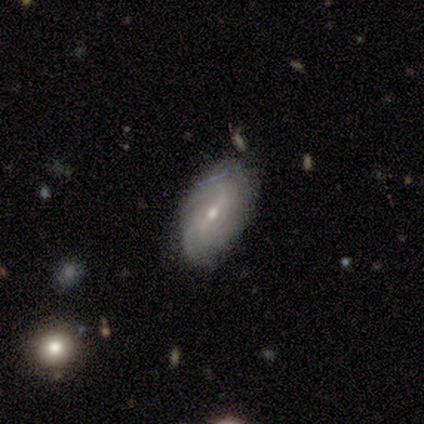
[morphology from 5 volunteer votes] smooth-or-featured: featured or disk: 100% | smooth: 0% | star or artifact: 0%
  disk-edge-on: no: 80% | yes: 20%
    bar: weak: 75% | strong: 25% | no: 0%
    has-spiral-arms: yes: 100% | no: 0%
      spiral-winding: tight: 75% | loose: 25% | medium: 0%
      spiral-arm-count: can't tell: 75% | 4: 25% | 1: 0% | 2: 0% | 3: 0% | more than 4: 0%
    bulge-size: moderate: 75% | small: 25% | dominant: 0% | large: 0% | none: 0%
  merging: none: 80% | merger: 20% | minor disturbance: 0% | major disturbance: 0%